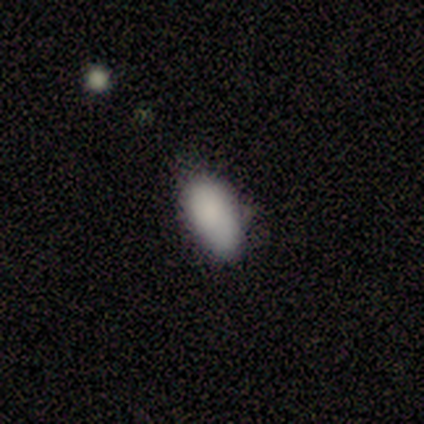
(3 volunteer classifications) Q: Smooth or featured?
A: smooth (100%)
Q: How rounded?
A: in between (100%)
Q: Merging?
A: none (67%); runner-up: minor disturbance (33%)